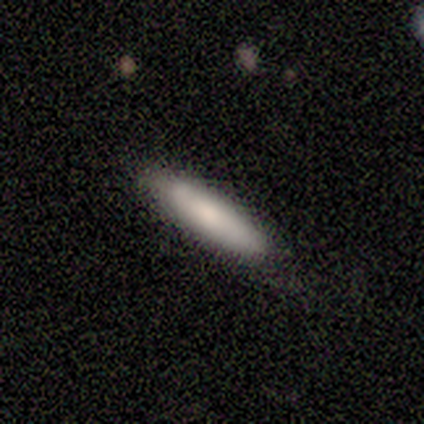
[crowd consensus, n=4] Q: Smooth or featured?
A: smooth (50%); tied with: featured or disk (50%)
Q: How rounded?
A: cigar-shaped (100%)
Q: Merging?
A: none (75%); runner-up: minor disturbance (25%)